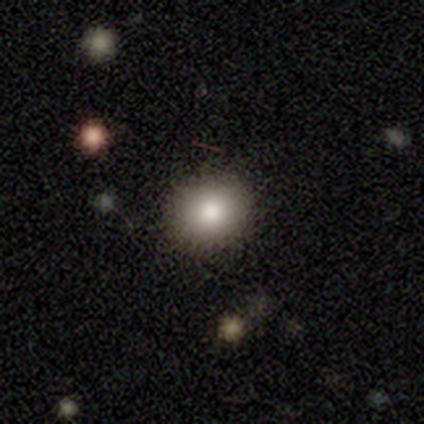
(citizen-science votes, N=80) A smooth galaxy with no disk features (81%) that is round (82%). Merging: none (42%).